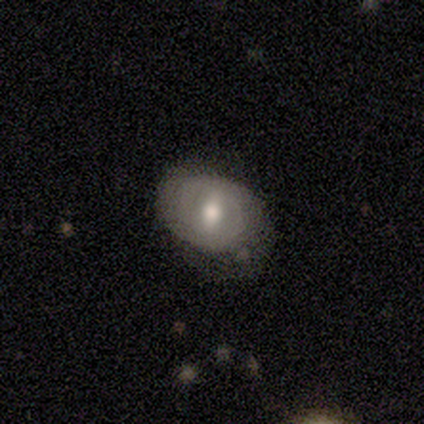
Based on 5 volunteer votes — This appears to be a smooth galaxy with no disk features (60%) that is in between round and cigar-shaped (67%). Merging: minor disturbance (60%).